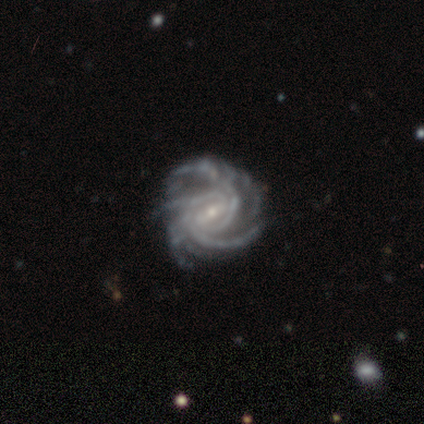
Smooth or featured: featured or disk — 100%
Edge-on disk: no — 100%
Bar: weak — 60% (strong — 20%)
Spiral arms: yes — 100%
Spiral winding: medium — 60% (tight — 40%)
Spiral arm count: more than 4 — 60% (3 — 20%)
Bulge size: small — 80% (moderate — 20%)
Merging: none — 80% (minor disturbance — 20%)